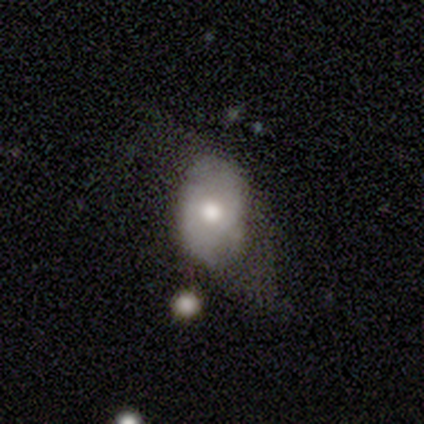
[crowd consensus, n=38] Smooth or featured? 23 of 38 (61%) said featured or disk. Edge-on disk? 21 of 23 (91%) said no. Bar? 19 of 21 (90%) said no. Spiral arms? 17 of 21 (81%) said no. Bulge size? 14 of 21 (67%) said moderate. Merging? 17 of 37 (46%) said none.